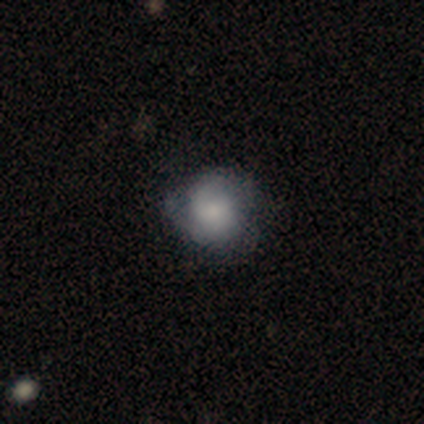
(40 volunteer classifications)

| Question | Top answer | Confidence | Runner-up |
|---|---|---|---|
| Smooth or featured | featured or disk | 50% | smooth (42%) |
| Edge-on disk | no | 90% | yes (10%) |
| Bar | no | 72% | weak (17%) |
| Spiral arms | yes | 83% | no (17%) |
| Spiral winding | tight | 60% | medium (27%) |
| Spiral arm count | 2 | 47% | can't tell (27%) |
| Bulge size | small | 50% | moderate (22%) |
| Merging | none | 57% | minor disturbance (30%) |